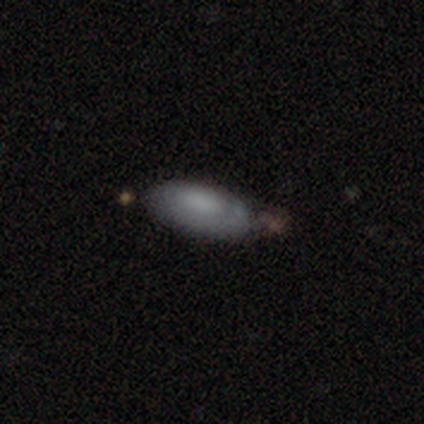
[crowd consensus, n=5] Q: Smooth or featured?
A: smooth (60%); runner-up: featured or disk (20%)
Q: How rounded?
A: in between (100%)
Q: Merging?
A: none (75%); runner-up: minor disturbance (25%)